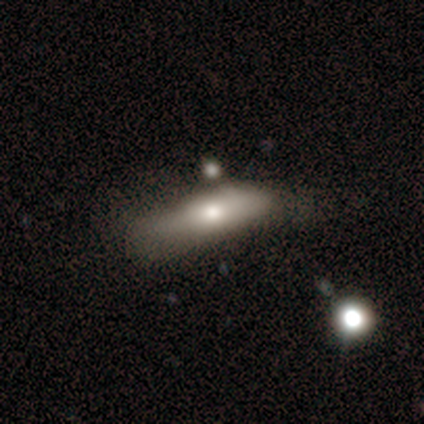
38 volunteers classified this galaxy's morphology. This appears to be a smooth galaxy with no disk features (63%) that is cigar-shaped (58%). Merging: none (42%).